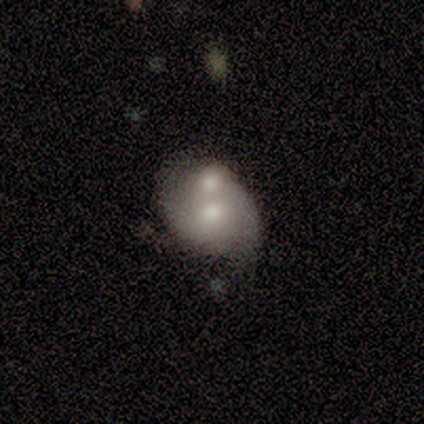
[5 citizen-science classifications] A smooth galaxy with no disk features (60%) that is in between round and cigar-shaped (100%).

Vote fractions:
- Smooth or featured? smooth: 60% / featured or disk: 20% / star or artifact: 20%
- How rounded? in between: 100% / round: 0% / cigar-shaped: 0%
- Merging? merger: 75% / major disturbance: 25% / none: 0% / minor disturbance: 0%